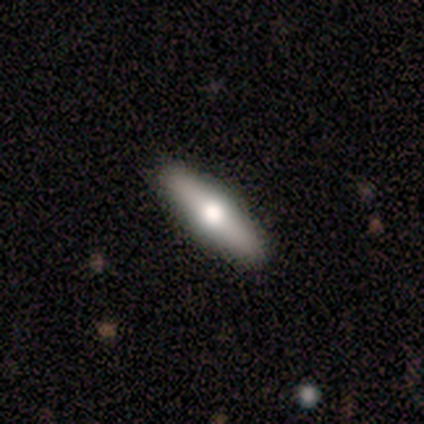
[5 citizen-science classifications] This appears to be a featured or disk galaxy (80%) viewed edge-on (100%) with a rounded central bulge (100%). Merging: none (100%).